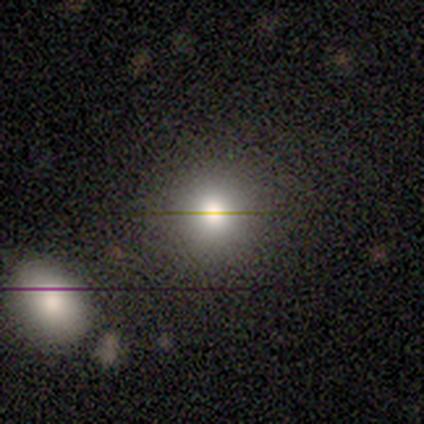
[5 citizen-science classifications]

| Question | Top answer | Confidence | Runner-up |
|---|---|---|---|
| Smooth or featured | smooth | 60% | featured or disk (20%) |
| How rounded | round | 100% | — |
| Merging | none | 100% | — |